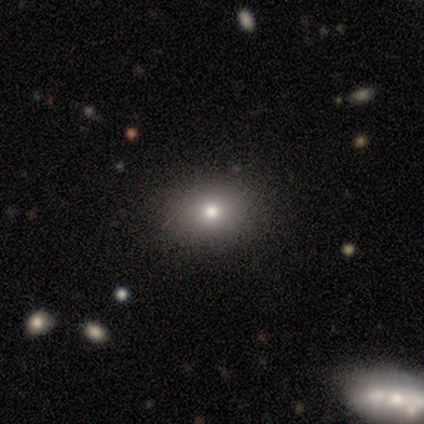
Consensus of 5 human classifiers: A smooth galaxy with no disk features (100%) that is round (60%).

Vote fractions:
- Smooth or featured? smooth: 100% / featured or disk: 0% / star or artifact: 0%
- How rounded? round: 60% / in between: 40% / cigar-shaped: 0%
- Merging? none: 60% / minor disturbance: 20% / major disturbance: 20% / merger: 0%